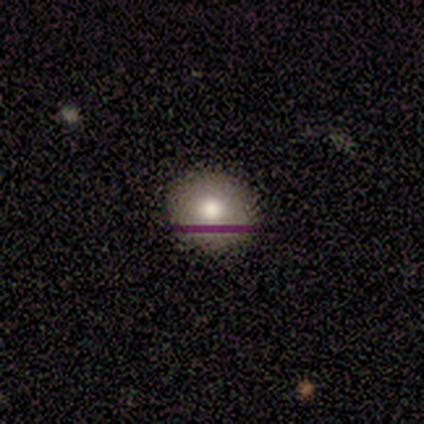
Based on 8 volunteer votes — Morphology: type=smooth (75%); roundness=round (67%); merging=none (100%).